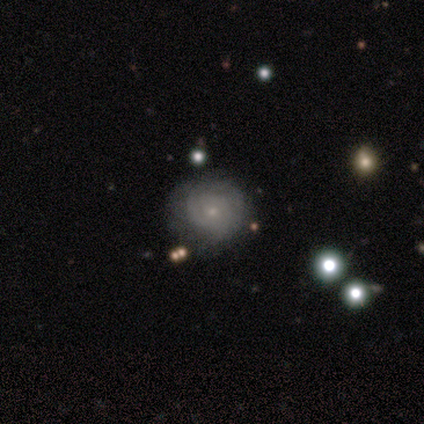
Morphology: type=featured or disk (68%); edge-on=no (100%); bar=no (73%); spiral arms=yes (81%); winding=tight (67%); arm count=can't tell (76%); bulge=small (81%); merging=none (78%).